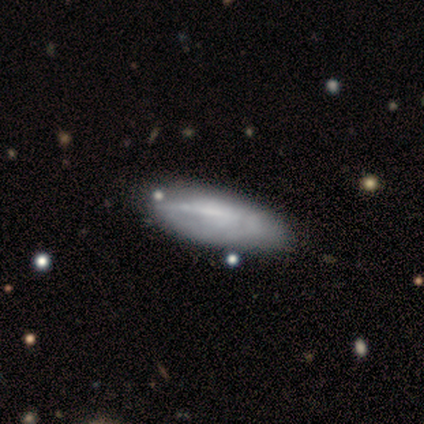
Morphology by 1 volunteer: Smooth or featured? 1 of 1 (100%) said smooth. How rounded? 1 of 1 (100%) said in between. Merging? 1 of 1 (100%) said none.